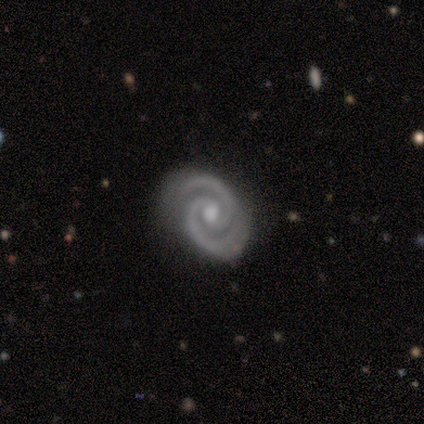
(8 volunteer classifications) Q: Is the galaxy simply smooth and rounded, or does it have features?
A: featured or disk — 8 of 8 (100%).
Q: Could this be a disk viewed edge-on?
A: no — 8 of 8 (100%).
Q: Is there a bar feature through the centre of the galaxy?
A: no — 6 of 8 (75%).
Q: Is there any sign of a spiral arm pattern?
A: yes — 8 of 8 (100%).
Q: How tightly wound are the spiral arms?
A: tight — 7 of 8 (88%).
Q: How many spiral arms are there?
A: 2 — 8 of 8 (100%).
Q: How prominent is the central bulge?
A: moderate — 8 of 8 (100%).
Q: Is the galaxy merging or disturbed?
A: none — 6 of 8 (75%).